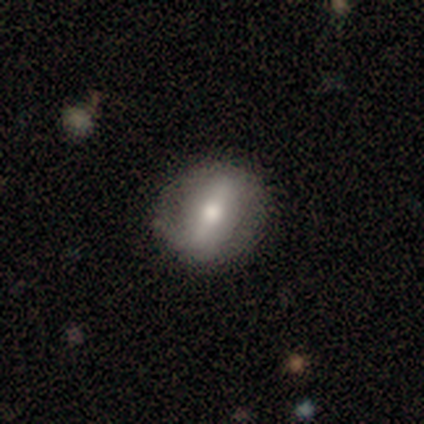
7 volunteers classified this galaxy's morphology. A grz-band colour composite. It shows a smooth galaxy with no disk features (57%) that is round (50%, tied with in between). Merging: none (71%).